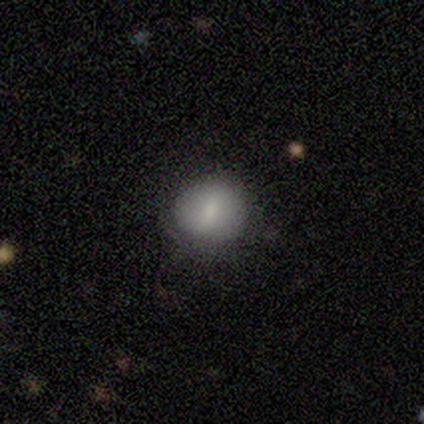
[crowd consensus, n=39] Overall: smooth (74%). How rounded: round (79%). Merging: none (70%).